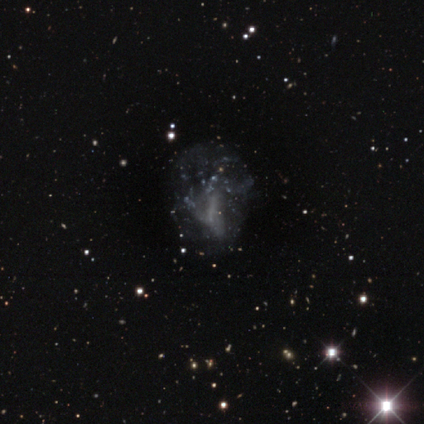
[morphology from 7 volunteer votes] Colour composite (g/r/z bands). It shows a featured or disk galaxy (71%) with no bar (80%), no spiral arms (100%) and no central bulge (80%). Merging: major disturbance (50%).